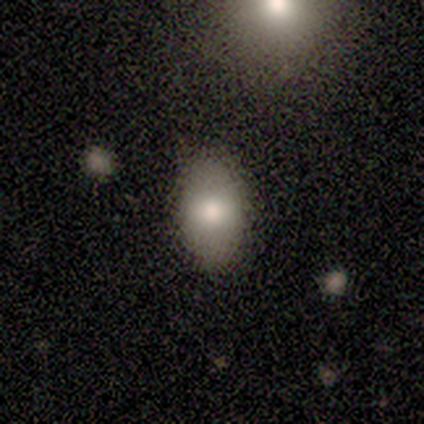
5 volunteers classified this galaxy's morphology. This is likely a smooth galaxy (60%). How rounded: clearly in between (100%). Merging: clearly none (100%).